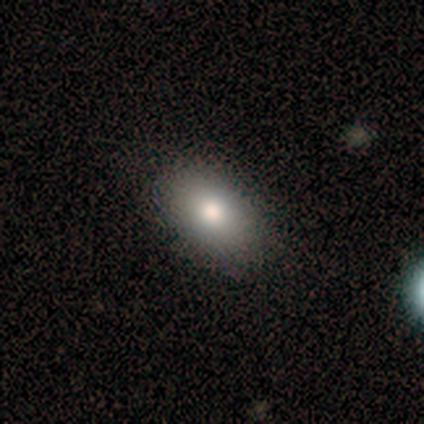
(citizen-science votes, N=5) A smooth galaxy with no disk features (80%) that is in between round and cigar-shaped (100%).

Vote fractions:
- Smooth or featured? smooth: 80% / star or artifact: 20% / featured or disk: 0%
- How rounded? in between: 100% / round: 0% / cigar-shaped: 0%
- Merging? none: 100% / minor disturbance: 0% / major disturbance: 0% / merger: 0%